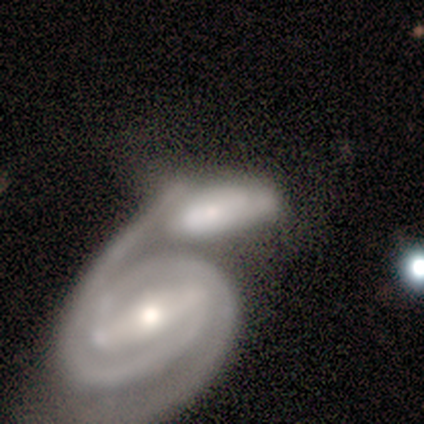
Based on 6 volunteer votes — Smooth or featured?
  - featured or disk: 83% *
  - smooth: 17%
  - star or artifact: 0%
Edge-on disk?
  - no: 100% *
  - yes: 0%
Bar?
  - strong: 60% *
  - no: 40%
  - weak: 0%
Spiral arms?
  - yes: 100% *
  - no: 0%
Spiral winding?
  - tight: 80% *
  - medium: 20%
  - loose: 0%
Spiral arm count?
  - 2: 60% *
  - 3: 20%
  - can't tell: 20%
  - 1: 0%
  - 4: 0%
  - more than 4: 0%
Bulge size?
  - small: 60% *
  - large: 20%
  - moderate: 20%
  - dominant: 0%
  - none: 0%
Merging?
  - merger: 100% *
  - none: 0%
  - minor disturbance: 0%
  - major disturbance: 0%